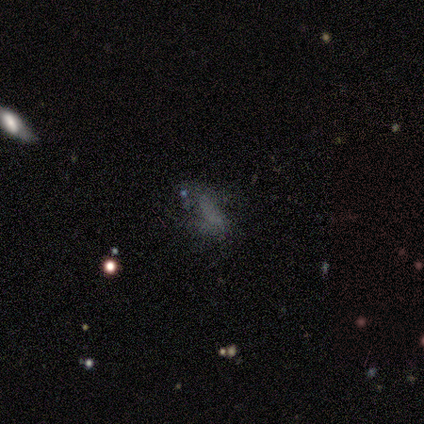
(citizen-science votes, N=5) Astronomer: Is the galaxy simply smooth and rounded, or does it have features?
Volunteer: featured or disk — 40%, tied with star or artifact at 40%.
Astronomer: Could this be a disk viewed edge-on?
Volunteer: no — 100%.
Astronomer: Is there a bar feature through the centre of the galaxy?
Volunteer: no — 100%.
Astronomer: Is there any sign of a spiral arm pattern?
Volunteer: yes — 50%, tied with no at 50%.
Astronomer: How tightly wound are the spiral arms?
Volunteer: loose — 100%.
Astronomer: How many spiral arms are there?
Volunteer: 2 — 100%.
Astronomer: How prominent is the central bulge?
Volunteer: none — 100%.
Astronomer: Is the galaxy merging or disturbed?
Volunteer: none — 100%.